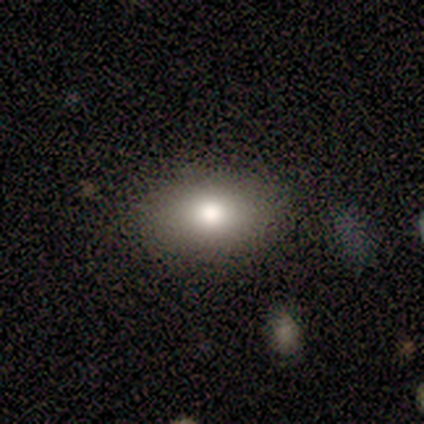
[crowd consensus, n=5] Volunteers were most divided on "merging": none: 60%, major disturbance: 40%, minor disturbance: 0%, merger: 0%. More confident: how rounded — in between (100%); smooth or featured — smooth (80%).